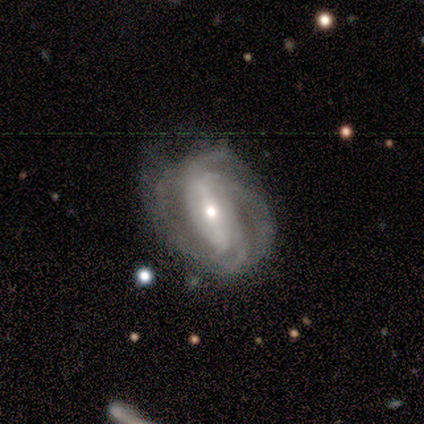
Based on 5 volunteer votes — Volunteers were most divided on "spiral arm count" (2-way tie): 2: 40%, 4: 40%, can't tell: 20%, 1: 0%, 3: 0%, more than 4: 0%. More confident: smooth or featured — featured or disk (100%); edge-on disk — no (100%); spiral arms — yes (100%); bulge size — moderate (80%); merging — none (80%); bar — strong (60%); spiral winding — tight (60%).